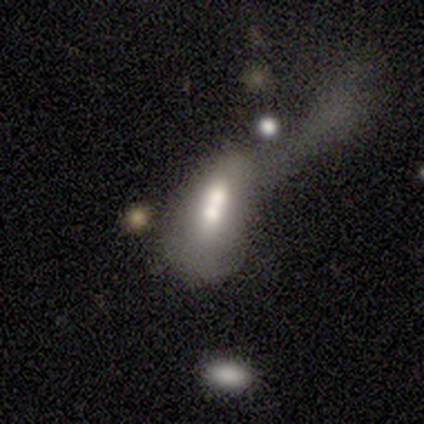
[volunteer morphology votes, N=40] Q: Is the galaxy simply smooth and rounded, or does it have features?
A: smooth — 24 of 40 (60%).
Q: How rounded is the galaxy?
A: in between — 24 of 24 (100%).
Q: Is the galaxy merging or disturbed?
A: merger — 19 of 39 (49%).